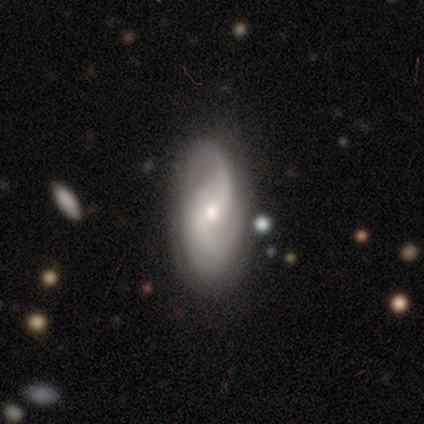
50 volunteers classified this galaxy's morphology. Smooth or featured? 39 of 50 (78%) said featured or disk. Edge-on disk? 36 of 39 (92%) said no. Bar? 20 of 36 (56%) said weak. Spiral arms? 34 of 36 (94%) said yes. Spiral winding? 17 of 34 (50%) said medium. Spiral arm count? 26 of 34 (76%) said 2. Bulge size? 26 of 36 (72%) said small. Merging? 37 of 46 (80%) said none.